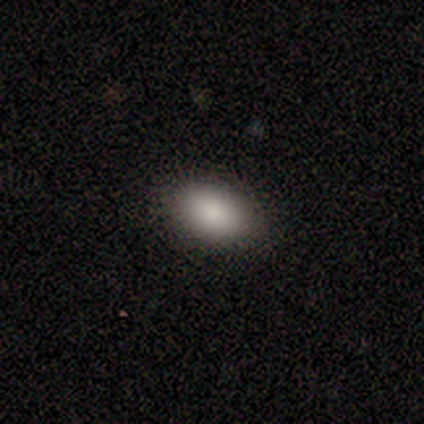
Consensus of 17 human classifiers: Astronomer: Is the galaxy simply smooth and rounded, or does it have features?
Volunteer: smooth — 94%.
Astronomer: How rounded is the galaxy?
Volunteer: in between — 100%.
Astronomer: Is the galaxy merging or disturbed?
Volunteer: none — 94%.